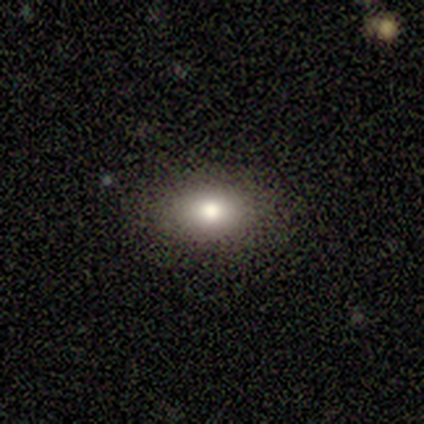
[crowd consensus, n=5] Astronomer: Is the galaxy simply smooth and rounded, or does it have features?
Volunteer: smooth — 80%.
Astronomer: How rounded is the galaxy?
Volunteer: in between — 75%.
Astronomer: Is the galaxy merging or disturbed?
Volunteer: none — 75%.